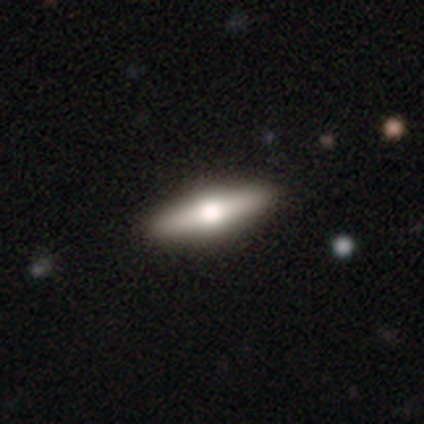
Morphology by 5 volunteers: This is likely a smooth galaxy (60%). How rounded: clearly cigar-shaped (100%). Merging: likely none (60%).